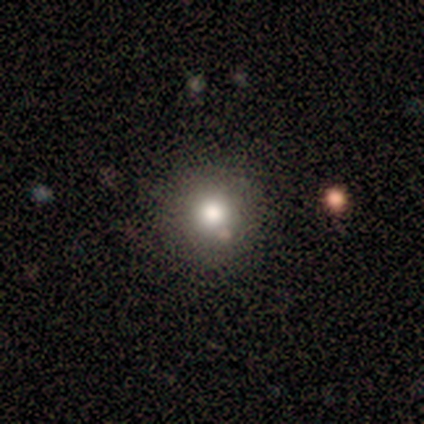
Overall: smooth (100%). How rounded: round (100%). Merging: none (75%).